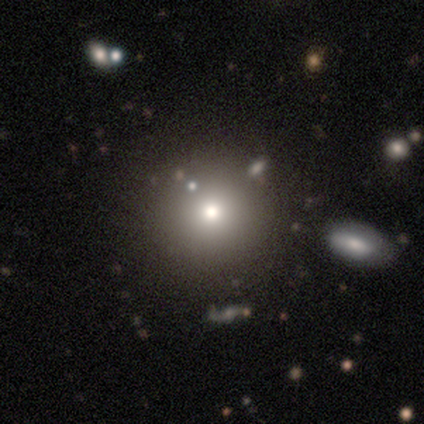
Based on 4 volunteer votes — A smooth galaxy with no disk features (75%) that is round (100%). Merging: none (100%).